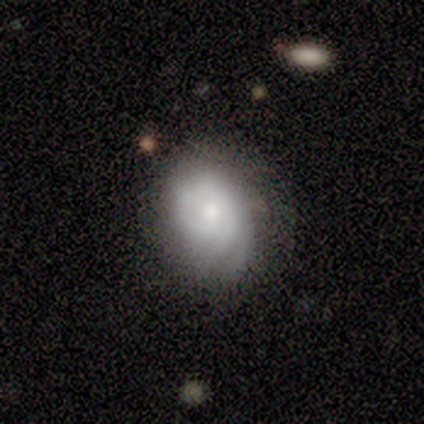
smooth_or_featured: smooth (p=0.60) [alt: featured or disk p=0.40]
how_rounded: round (p=0.67) [alt: in between p=0.33]
merging: none (p=0.80) [alt: major disturbance p=0.20]